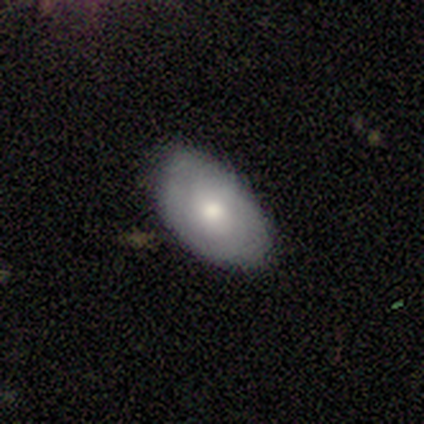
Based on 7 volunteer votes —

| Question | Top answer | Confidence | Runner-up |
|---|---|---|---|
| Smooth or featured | smooth | 71% | featured or disk (29%) |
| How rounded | in between | 100% | — |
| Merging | none | 86% | minor disturbance (14%) |